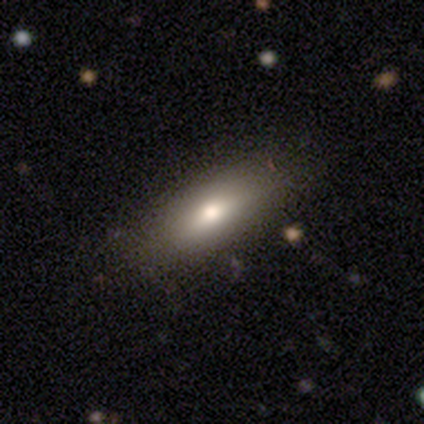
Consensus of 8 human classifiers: Smooth or featured: smooth — 88% (featured or disk — 12%)
How rounded: in between — 71% (cigar-shaped — 29%)
Merging: none — 100%